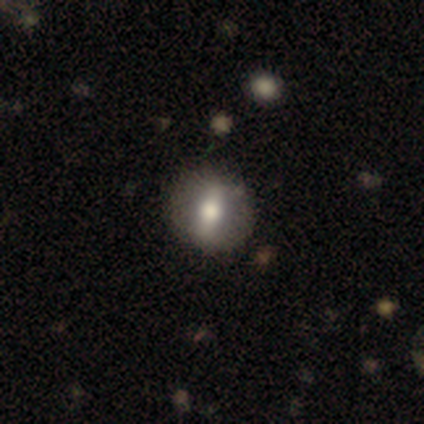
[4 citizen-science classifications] Smooth or featured? 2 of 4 (50%) said smooth. How rounded? 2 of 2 (100%) said round. Merging? 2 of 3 (67%) said none.